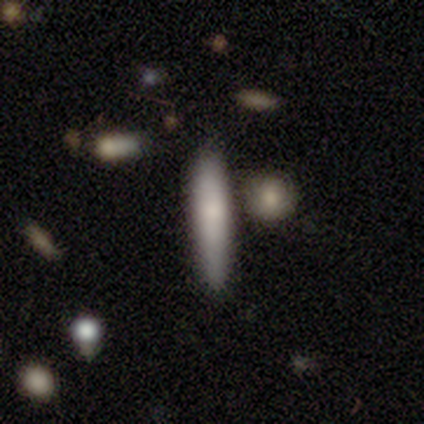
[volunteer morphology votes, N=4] Smooth or featured?
  - smooth: 75% *
  - featured or disk: 25%
  - star or artifact: 0%
How rounded?
  - cigar-shaped: 100% *
  - round: 0%
  - in between: 0%
Merging?
  - none: 50% * (tied)
  - minor disturbance: 50% * (tied)
  - major disturbance: 0%
  - merger: 0%